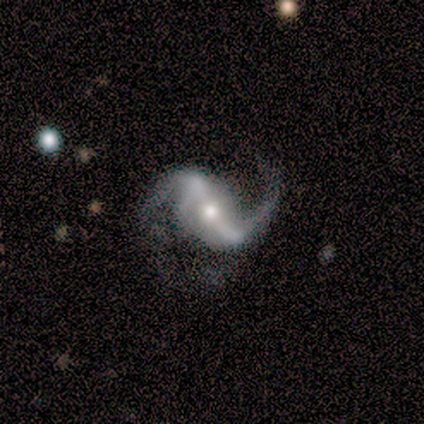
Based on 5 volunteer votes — This appears to be a featured or disk galaxy (100%) with a strong bar (60%), 2 (80%) loose (80%) spiral arms (100%) and a moderate central bulge (60%). Merging: none (40%, tied with minor disturbance).